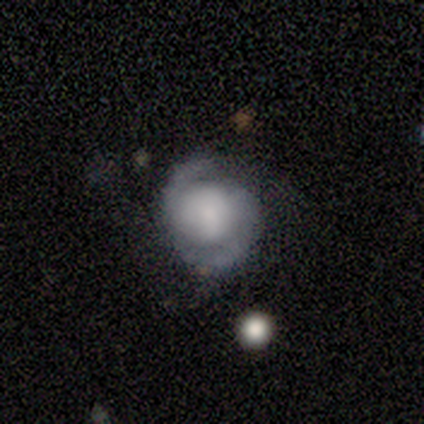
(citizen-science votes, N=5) Overall: smooth (40%, tied with star or artifact). How rounded: round (100%). Merging: minor disturbance (67%; none 33%).